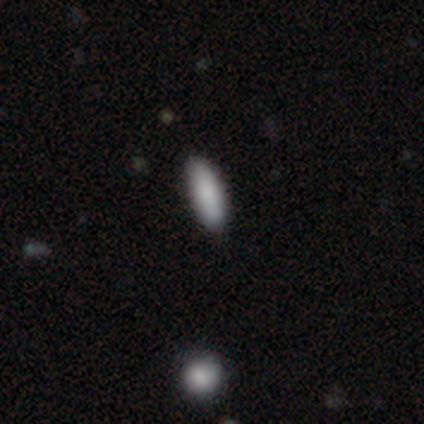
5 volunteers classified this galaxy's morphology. This is clearly a smooth galaxy (80%). How rounded: possibly in between (50%, tied with cigar-shaped). Merging: clearly none (80%).